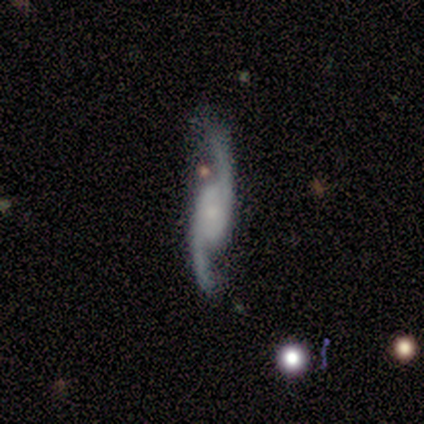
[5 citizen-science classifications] Smooth or featured? featured or disk (100%)
Edge-on disk? no (80%)
Bar? weak (50%, tied with no)
Spiral arms? yes (100%)
Spiral winding? loose (100%)
Spiral arm count? 2 (100%)
Bulge size? small (100%)
Merging? none (100%)